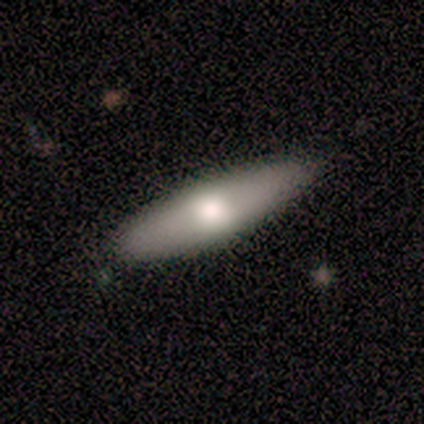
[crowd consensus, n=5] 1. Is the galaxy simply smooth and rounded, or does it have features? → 60% featured or disk, 40% smooth, 0% star or artifact.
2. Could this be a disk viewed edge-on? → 67% no, 33% yes.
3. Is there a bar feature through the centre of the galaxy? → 50% strong (tied), 50% no (tied), 0% weak.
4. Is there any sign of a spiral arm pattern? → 100% no, 0% yes.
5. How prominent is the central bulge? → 50% large (tied), 50% moderate (tied), 0% dominant, 0% small, 0% none.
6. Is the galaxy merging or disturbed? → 80% none, 20% minor disturbance, 0% major disturbance, 0% merger.